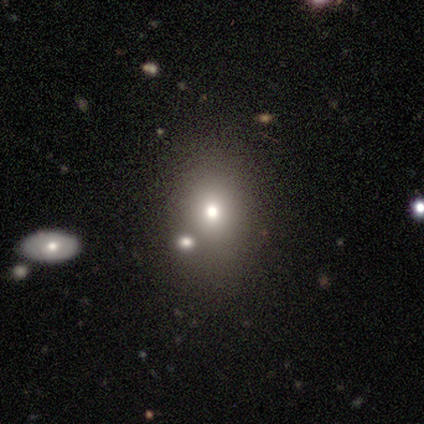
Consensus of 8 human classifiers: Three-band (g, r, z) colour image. It shows a smooth galaxy with no disk features (75%) that is round (67%). Merging: none (88%).